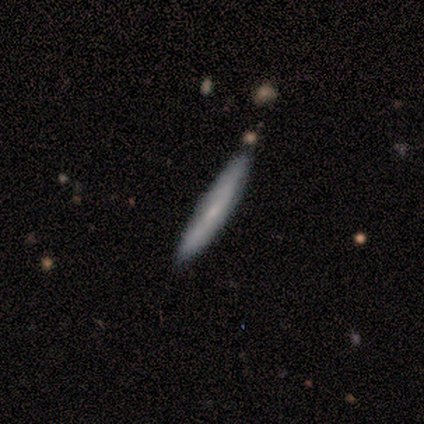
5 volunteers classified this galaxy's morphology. Smooth or featured? smooth (40%, tied with featured or disk)
How rounded? cigar-shaped (100%)
Merging? none (100%)